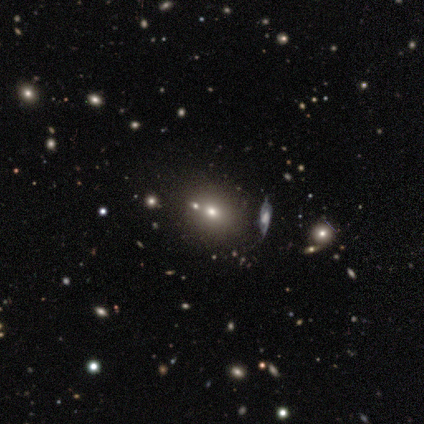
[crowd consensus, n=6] smooth 50% (tied), featured or disk 50% (tied), star or artifact 0%. Down the decision tree: how rounded — round (67%); merging — none (67%).